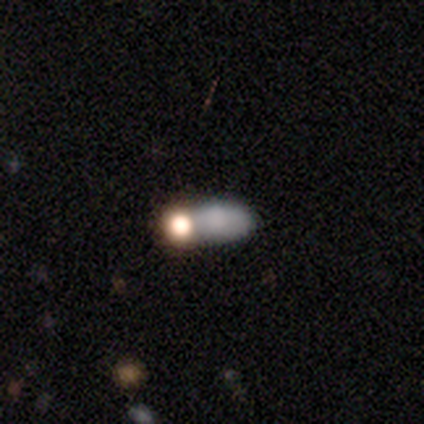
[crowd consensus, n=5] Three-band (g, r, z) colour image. It shows a smooth galaxy with no disk features (80%) that is in between round and cigar-shaped (75%). Merging: none (50%).